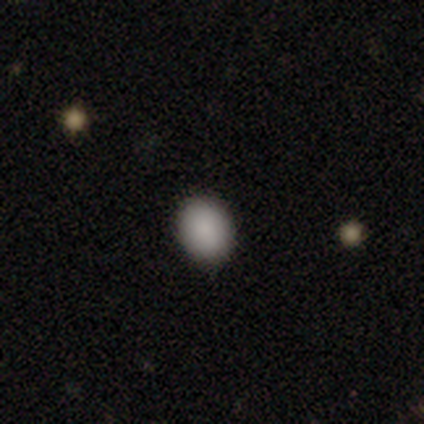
smooth 100%, featured or disk 0%, star or artifact 0%. Down the decision tree: how rounded — in between (60%); merging — none (100%).